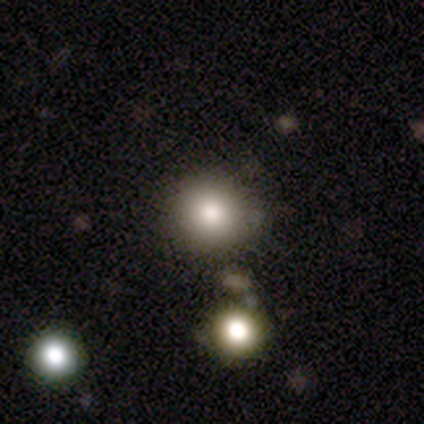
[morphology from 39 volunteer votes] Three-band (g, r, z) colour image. It shows a smooth galaxy with no disk features (77%) that is round (97%). Merging: none (85%).